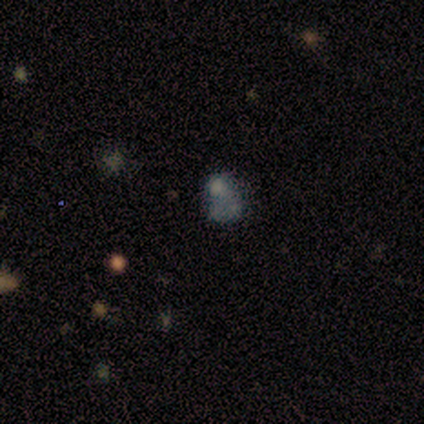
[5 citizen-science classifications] Morphology: type=featured or disk (80%); edge-on=no (100%); bar=no (100%); spiral arms=no (100%); bulge=none (50%); merging=none (50%, tied with minor disturbance).